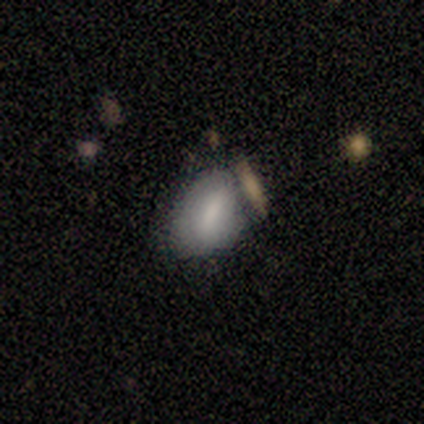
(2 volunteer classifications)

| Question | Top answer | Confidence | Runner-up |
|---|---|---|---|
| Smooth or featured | smooth | 100% | — |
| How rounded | in between | 100% | — |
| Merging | minor disturbance | 100% | — |